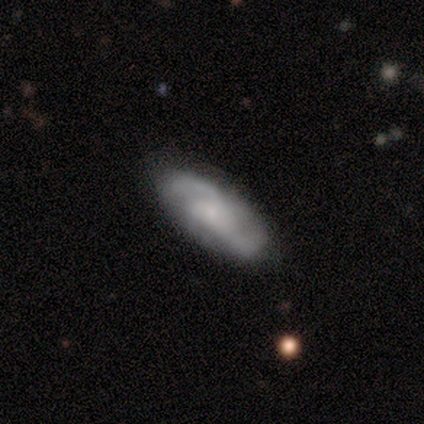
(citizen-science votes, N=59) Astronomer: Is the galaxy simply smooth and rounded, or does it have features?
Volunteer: featured or disk — 80%.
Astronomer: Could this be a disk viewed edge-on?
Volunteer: no — 96%.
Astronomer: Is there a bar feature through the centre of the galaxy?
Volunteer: no — 73%.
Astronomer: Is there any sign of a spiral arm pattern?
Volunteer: yes — 96%.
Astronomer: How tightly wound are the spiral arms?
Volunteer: medium — 49% (runner-up: tight, 30%).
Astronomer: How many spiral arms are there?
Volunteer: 2 — 65%.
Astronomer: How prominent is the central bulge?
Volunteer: small — 53%.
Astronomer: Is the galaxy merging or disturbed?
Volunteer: none — 62%.